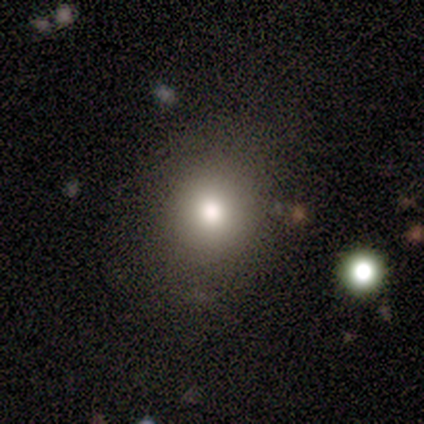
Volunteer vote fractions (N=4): smooth-or-featured: smooth: 100% | featured or disk: 0% | star or artifact: 0%
  how-rounded: round: 75% | in between: 25% | cigar-shaped: 0%
  merging: none: 100% | minor disturbance: 0% | major disturbance: 0% | merger: 0%